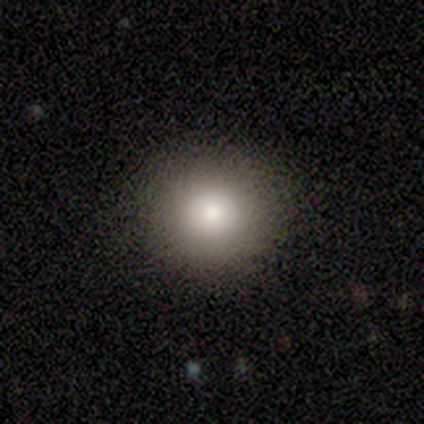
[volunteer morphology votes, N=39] smooth_or_featured: smooth (p=0.82) [alt: star or artifact p=0.10]
how_rounded: round (p=0.94) [alt: in between p=0.03]
merging: none (p=0.94) [alt: minor disturbance p=0.06]